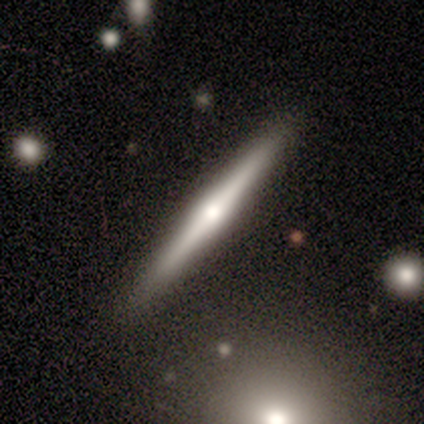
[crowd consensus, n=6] A featured or disk galaxy (83%) viewed edge-on (100%) with a rounded central bulge (100%).

Vote fractions:
- Smooth or featured? featured or disk: 83% / smooth: 17% / star or artifact: 0%
- Edge-on disk? yes: 100% / no: 0%
- Edge-on bulge? rounded: 100% / boxy: 0% / none: 0%
- Merging? none: 100% / minor disturbance: 0% / major disturbance: 0% / merger: 0%